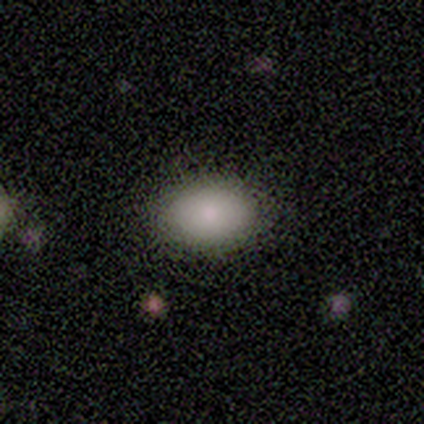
This is clearly a smooth galaxy (80%). How rounded: clearly in between (100%). Merging: clearly none (100%).